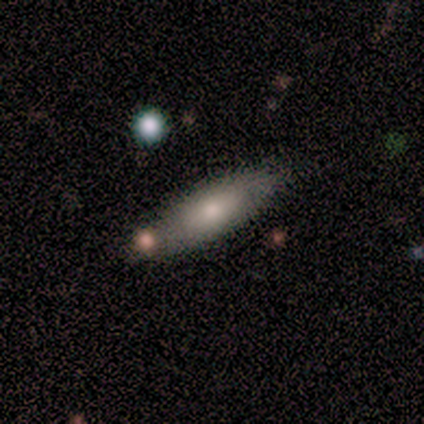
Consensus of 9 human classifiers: smooth 78%, featured or disk 22%, star or artifact 0%. Down the decision tree: how rounded — in between (57%); merging — none (78%).